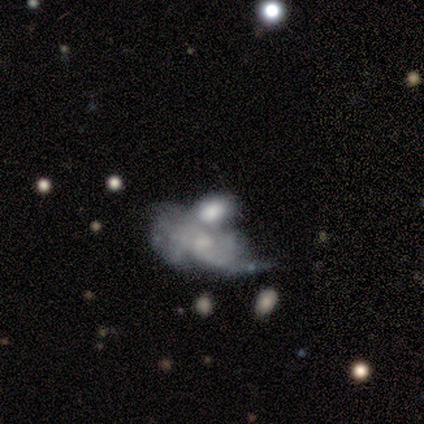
featured or disk 75%, smooth 25%, star or artifact 0%. Down the decision tree: edge-on disk — no (100%); bar — no (67%); spiral arms — yes (67%); spiral arm count — 3 (100%); spiral winding — tight (50%, tied with medium); bulge size — large (33%, tied with moderate and small); merging — merger (100%).